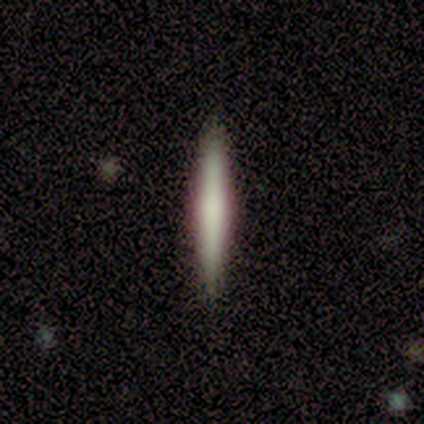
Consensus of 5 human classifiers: Smooth or featured? smooth (60%)
How rounded? cigar-shaped (100%)
Merging? none (80%)